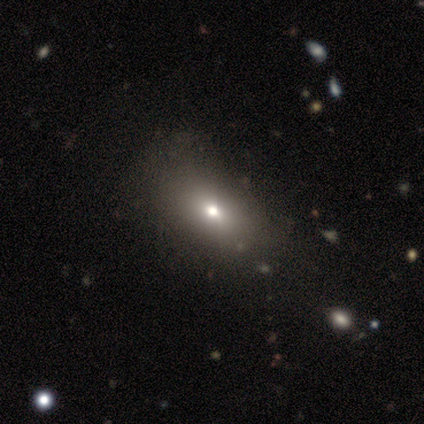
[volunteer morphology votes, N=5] A smooth galaxy with no disk features (80%) that is in between round and cigar-shaped (100%). Merging: minor disturbance (60%).